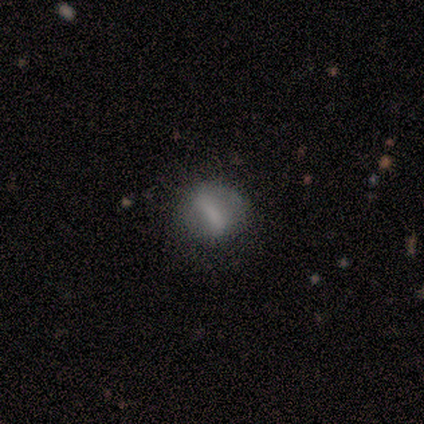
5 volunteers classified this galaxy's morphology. A smooth galaxy with no disk features (80%) that is round (75%).

Vote fractions:
- Smooth or featured? smooth: 80% / featured or disk: 20% / star or artifact: 0%
- How rounded? round: 75% / in between: 25% / cigar-shaped: 0%
- Merging? minor disturbance: 40% (tied) / major disturbance: 40% (tied) / none: 20% / merger: 0%